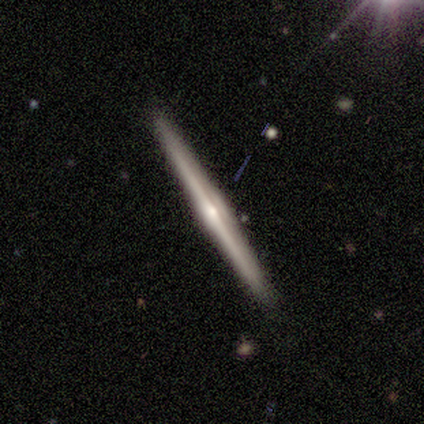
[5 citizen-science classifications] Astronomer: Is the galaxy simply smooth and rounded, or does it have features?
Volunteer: featured or disk — 60% (runner-up: smooth, 40%).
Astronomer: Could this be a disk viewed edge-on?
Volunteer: yes — 100%.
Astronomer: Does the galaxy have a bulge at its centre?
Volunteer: rounded — 100%.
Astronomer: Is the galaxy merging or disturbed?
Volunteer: none — 100%.